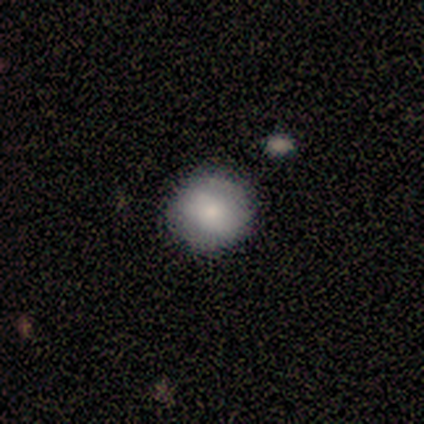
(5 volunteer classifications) Volunteers were most divided on "merging": none: 80%, minor disturbance: 20%, major disturbance: 0%, merger: 0%. More confident: smooth or featured — smooth (100%); how rounded — round (100%).